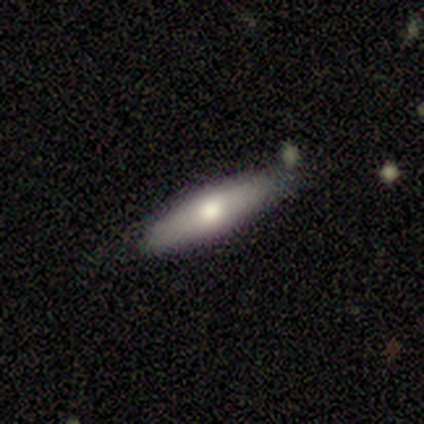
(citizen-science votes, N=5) Smooth or featured? 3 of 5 (60%) said featured or disk. Edge-on disk? 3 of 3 (100%) said yes. Edge-on bulge? 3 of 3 (100%) said rounded. Merging? 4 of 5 (80%) said none.